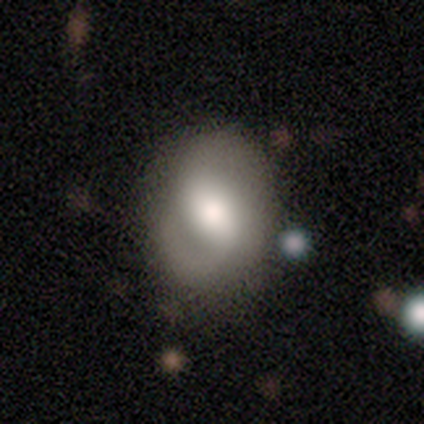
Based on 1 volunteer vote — Q: Smooth or featured?
A: smooth (100%)
Q: How rounded?
A: in between (100%)
Q: Merging?
A: none (100%)